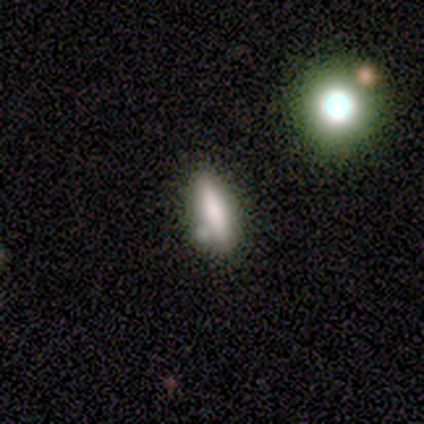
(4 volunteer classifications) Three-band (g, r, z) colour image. It shows a featured or disk galaxy (50%) viewed edge-on (50%, tied with no) with a rounded central bulge (100%). Merging: minor disturbance (67%).